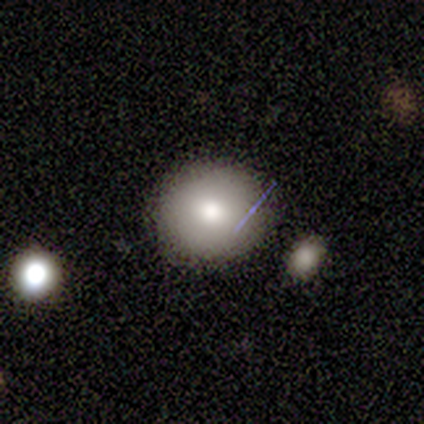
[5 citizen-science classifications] Smooth or featured? 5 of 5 (100%) said smooth. How rounded? 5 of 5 (100%) said round. Merging? 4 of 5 (80%) said none.